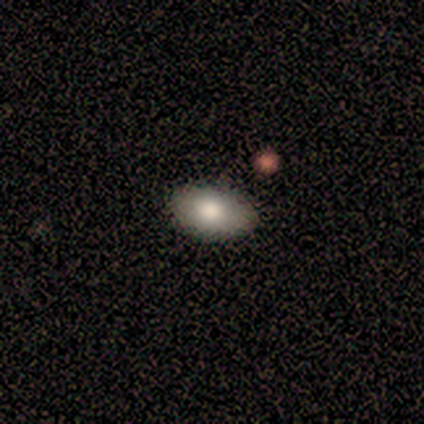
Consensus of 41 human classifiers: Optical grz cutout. It shows a smooth galaxy with no disk features (83%) that is in between round and cigar-shaped (94%). Merging: none (92%).